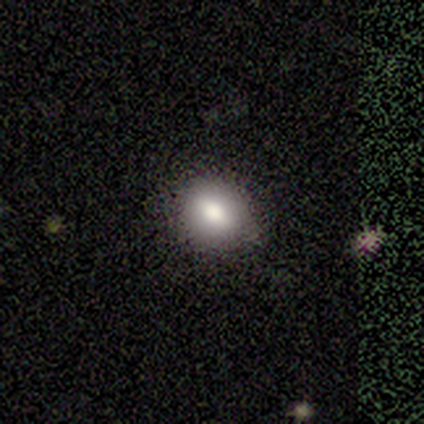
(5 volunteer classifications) Overall: smooth (80%). How rounded: round (50%, tied with in between). Merging: none (100%).